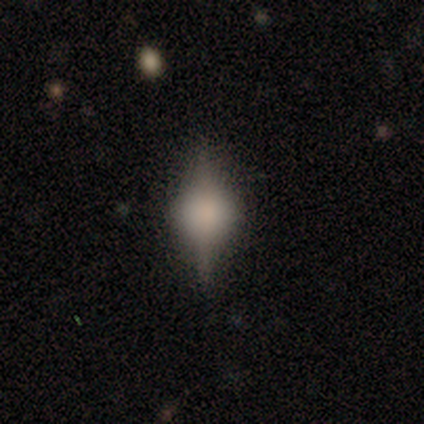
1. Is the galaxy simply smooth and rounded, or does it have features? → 80% featured or disk, 20% smooth, 0% star or artifact.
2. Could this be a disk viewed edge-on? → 100% yes, 0% no.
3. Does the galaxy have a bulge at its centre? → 100% rounded, 0% boxy, 0% none.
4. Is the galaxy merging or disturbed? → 60% none, 20% minor disturbance, 20% major disturbance, 0% merger.